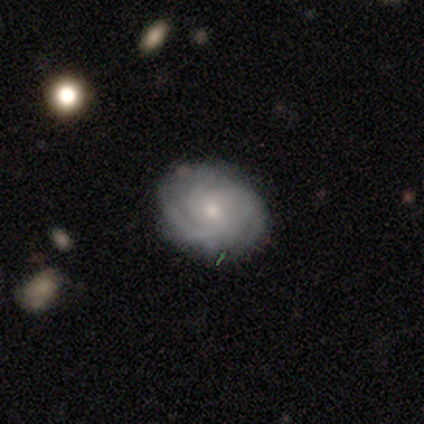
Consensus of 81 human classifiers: featured or disk 89%, smooth 9%, star or artifact 2%. Down the decision tree: edge-on disk — no (99%); bar — no (66%); spiral arms — yes (97%); spiral arm count — 3 (39%); spiral winding — tight (75%); bulge size — small (68%); merging — none (81%).